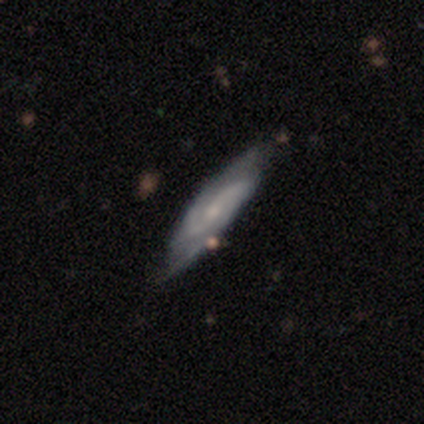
Smooth or featured: featured or disk — 89% (smooth — 11%)
Edge-on disk: no — 74% (yes — 26%)
Bar: weak — 44% (no — 40%)
Spiral arms: yes — 92% (no — 8%)
Spiral winding: medium — 57% (loose — 35%)
Spiral arm count: 2 — 83% (can't tell — 17%)
Bulge size: small — 48% (moderate — 40%)
Merging: none — 50% (minor disturbance — 11%)